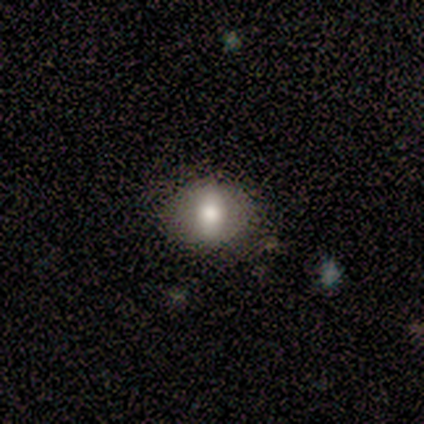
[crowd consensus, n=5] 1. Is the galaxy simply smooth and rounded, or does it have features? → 100% smooth, 0% featured or disk, 0% star or artifact.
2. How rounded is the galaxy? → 60% round, 40% in between, 0% cigar-shaped.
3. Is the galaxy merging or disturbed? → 100% none, 0% minor disturbance, 0% major disturbance, 0% merger.